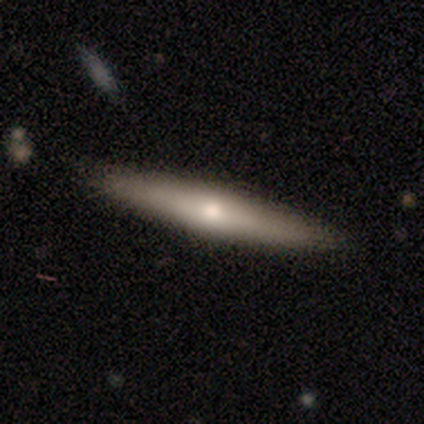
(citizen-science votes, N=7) This is likely a featured or disk galaxy (71%). It is clearly viewed edge-on (80%). Edge-on bulge: clearly rounded (100%). Merging: clearly none (83%).